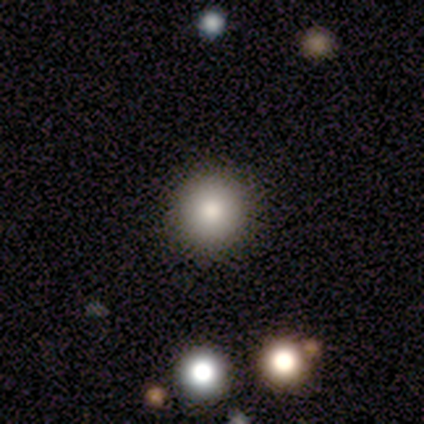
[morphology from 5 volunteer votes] This is clearly a smooth galaxy (80%). How rounded: clearly round (100%). Merging: likely none (75%).